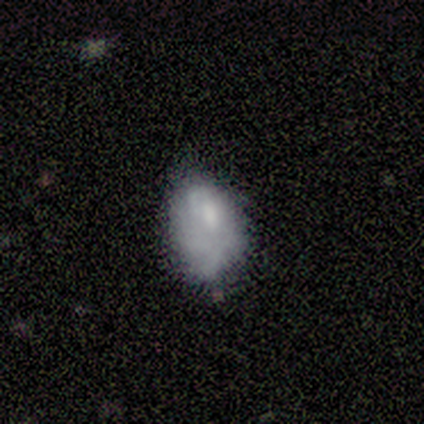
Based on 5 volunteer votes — This appears to be a smooth galaxy with no disk features (80%) that is in between round and cigar-shaped (100%). Merging: none (40%, tied with minor disturbance).